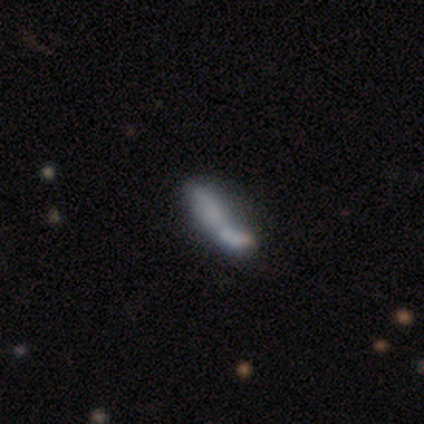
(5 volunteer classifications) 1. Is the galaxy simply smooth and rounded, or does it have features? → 80% smooth, 20% featured or disk, 0% star or artifact.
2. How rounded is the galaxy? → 100% in between, 0% round, 0% cigar-shaped.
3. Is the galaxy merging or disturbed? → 60% merger, 20% minor disturbance, 20% major disturbance, 0% none.